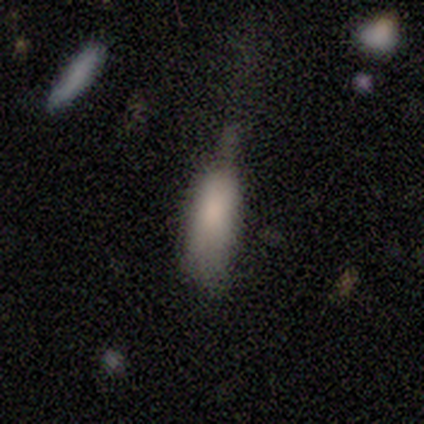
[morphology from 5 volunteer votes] smooth 100%, featured or disk 0%, star or artifact 0%. Down the decision tree: how rounded — in between (60%); merging — minor disturbance (60%).